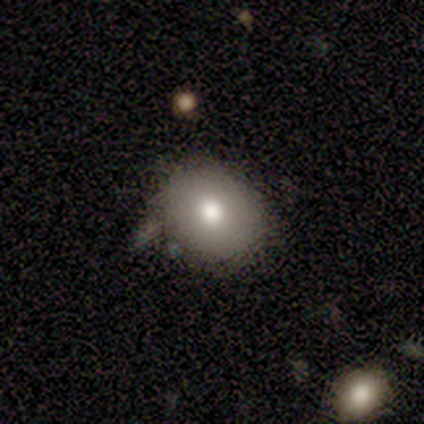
Q: Smooth or featured?
A: smooth (80%); runner-up: featured or disk (20%)
Q: How rounded?
A: round (50%); tied with: in between (50%)
Q: Merging?
A: none (60%); runner-up: minor disturbance (20%)